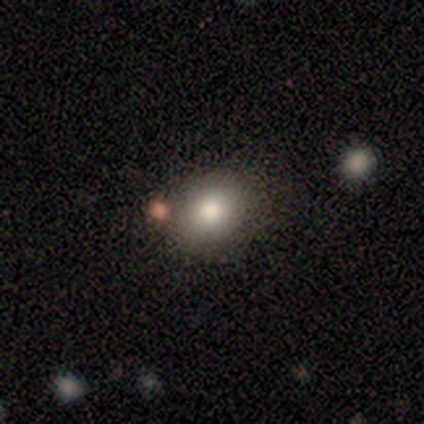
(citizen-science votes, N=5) This is clearly a smooth galaxy (100%). How rounded: clearly round (80%). Merging: clearly none (80%).